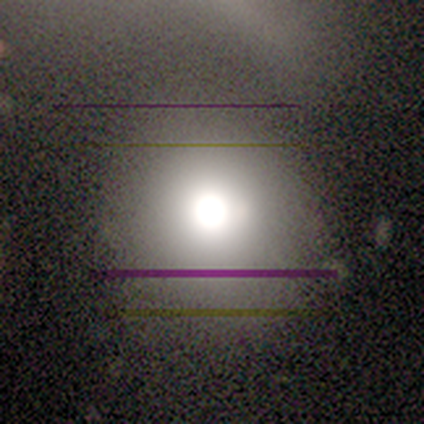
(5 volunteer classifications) This appears to be a smooth galaxy with no disk features (40%, tied with star or artifact) that is round (100%). Merging: none (67%).